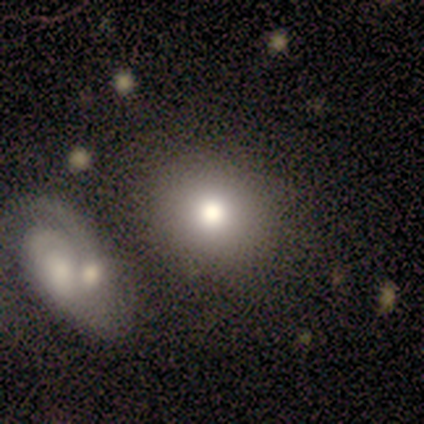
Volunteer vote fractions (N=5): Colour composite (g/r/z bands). It shows a smooth galaxy with no disk features (100%) that is round (80%). Merging: none (100%).